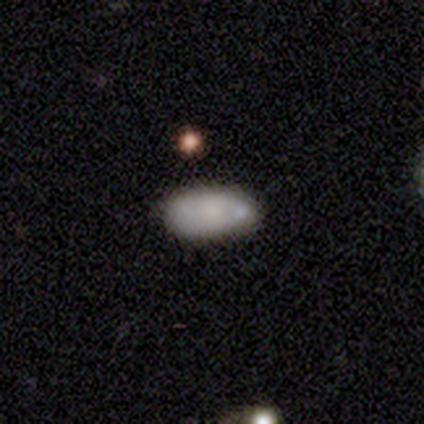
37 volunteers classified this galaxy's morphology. Smooth or featured?
  - smooth: 76% *
  - featured or disk: 14%
  - star or artifact: 11%
How rounded?
  - in between: 93% *
  - round: 4%
  - cigar-shaped: 4%
Merging?
  - none: 67% *
  - minor disturbance: 24%
  - major disturbance: 6%
  - merger: 3%